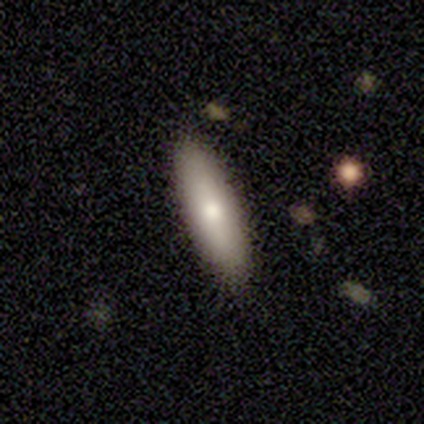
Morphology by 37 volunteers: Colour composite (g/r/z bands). It shows a smooth galaxy with no disk features (65%) that is in between round and cigar-shaped (50%, tied with cigar-shaped). Merging: none (91%).